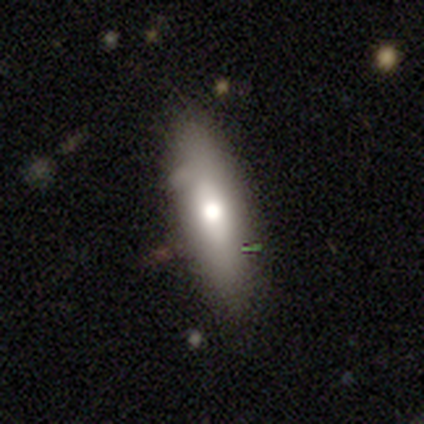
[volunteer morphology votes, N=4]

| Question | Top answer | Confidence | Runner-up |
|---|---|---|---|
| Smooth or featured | featured or disk | 50% | smooth (25%) |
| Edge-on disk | yes | 100% | — |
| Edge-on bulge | rounded | 100% | — |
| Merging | none | 67% | major disturbance (33%) |